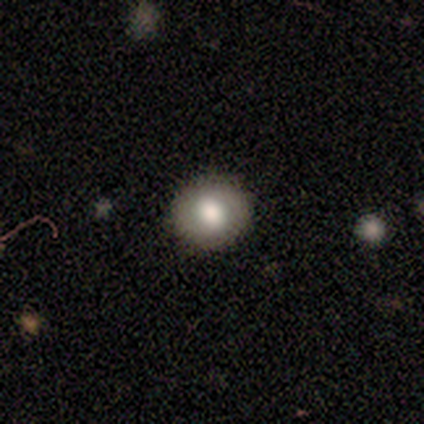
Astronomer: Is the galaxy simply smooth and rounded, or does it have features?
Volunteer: smooth — 80%.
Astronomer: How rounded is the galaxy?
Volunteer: round — 100%.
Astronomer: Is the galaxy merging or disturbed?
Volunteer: none — 100%.